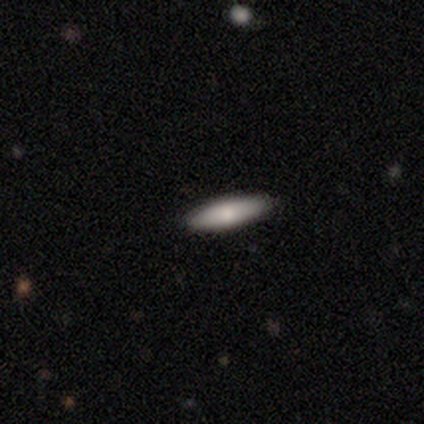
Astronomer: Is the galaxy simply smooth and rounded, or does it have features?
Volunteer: smooth — 80%.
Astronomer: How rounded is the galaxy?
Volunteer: cigar-shaped — 75%.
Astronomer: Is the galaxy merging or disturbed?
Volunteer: none — 100%.